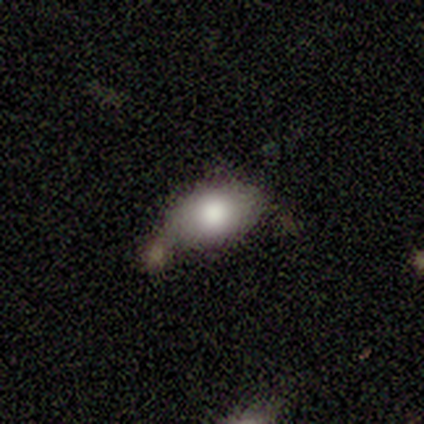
Volunteers were most divided on "smooth or featured" (2-way tie): smooth: 50%, featured or disk: 50%, star or artifact: 0%; "how rounded" (2-way tie): in between: 50%, cigar-shaped: 50%, round: 0%. More confident: merging — none (100%).